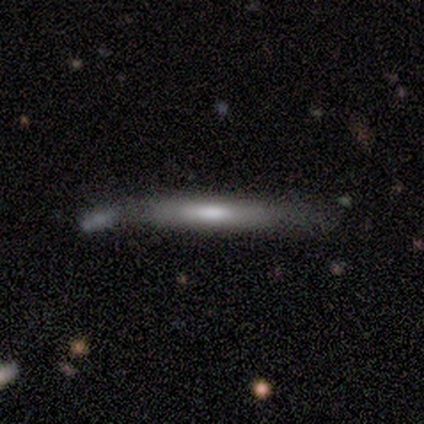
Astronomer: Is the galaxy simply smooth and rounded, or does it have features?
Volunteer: star or artifact — 50%.